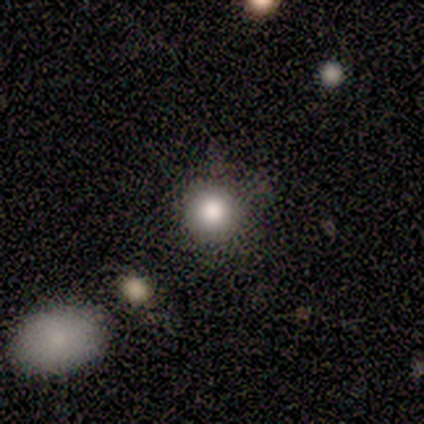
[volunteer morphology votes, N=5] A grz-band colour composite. It shows a smooth galaxy with no disk features (100%) that is round (100%). Merging: none (80%).